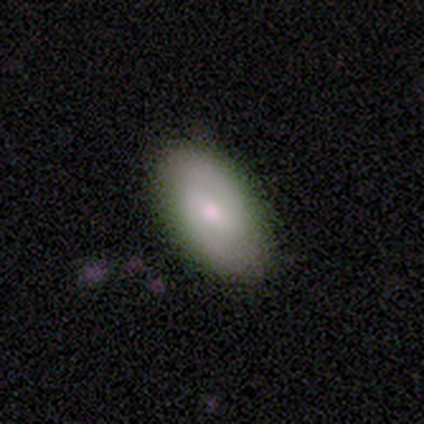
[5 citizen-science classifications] A smooth galaxy with no disk features (80%) that is in between round and cigar-shaped (100%).

Vote fractions:
- Smooth or featured? smooth: 80% / featured or disk: 20% / star or artifact: 0%
- How rounded? in between: 100% / round: 0% / cigar-shaped: 0%
- Merging? none: 80% / minor disturbance: 20% / major disturbance: 0% / merger: 0%